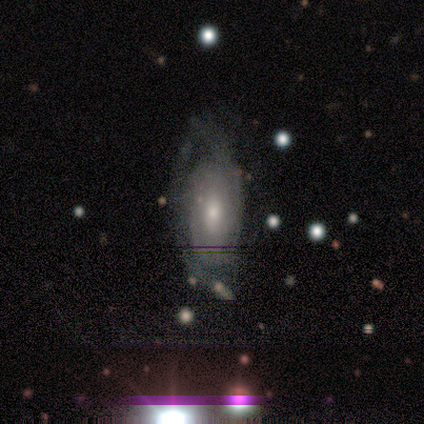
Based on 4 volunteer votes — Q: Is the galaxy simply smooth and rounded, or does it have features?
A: featured or disk — 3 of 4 (75%).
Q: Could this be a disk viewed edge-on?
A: no — 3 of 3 (100%).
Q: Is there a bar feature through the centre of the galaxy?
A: no — 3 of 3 (100%).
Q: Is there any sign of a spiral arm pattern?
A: yes — 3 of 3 (100%).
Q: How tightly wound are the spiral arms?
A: tight — 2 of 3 (67%).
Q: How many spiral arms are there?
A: can't tell — 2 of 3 (67%).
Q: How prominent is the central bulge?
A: small — 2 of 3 (67%).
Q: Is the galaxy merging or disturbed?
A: none — 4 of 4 (100%).